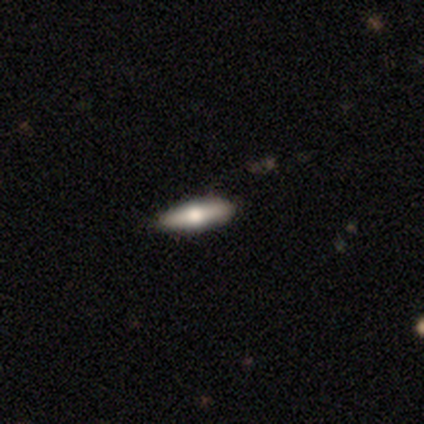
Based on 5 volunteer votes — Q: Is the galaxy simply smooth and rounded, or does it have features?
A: smooth — 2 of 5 (40%, tied with star or artifact).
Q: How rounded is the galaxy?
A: in between — 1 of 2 (50%, tied with cigar-shaped).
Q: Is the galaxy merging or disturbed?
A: none — 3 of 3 (100%).